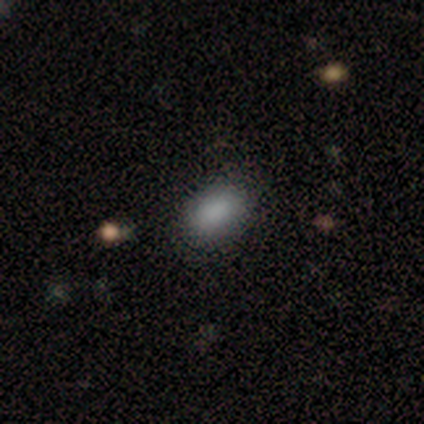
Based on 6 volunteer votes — This appears to be a smooth galaxy with no disk features (100%) that is in between round and cigar-shaped (83%). Merging: none (50%, tied with minor disturbance).